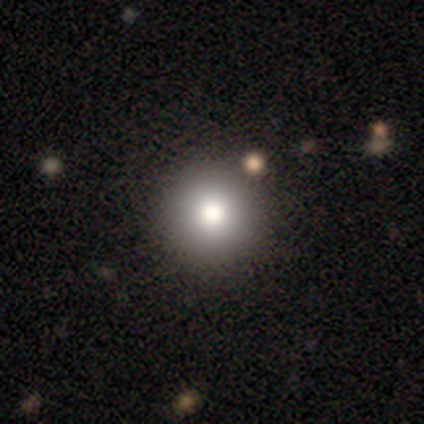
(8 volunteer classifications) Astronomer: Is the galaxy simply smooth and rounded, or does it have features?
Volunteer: smooth — 100%.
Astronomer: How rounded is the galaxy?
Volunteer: round — 100%.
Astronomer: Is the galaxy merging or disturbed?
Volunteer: none — 88%.